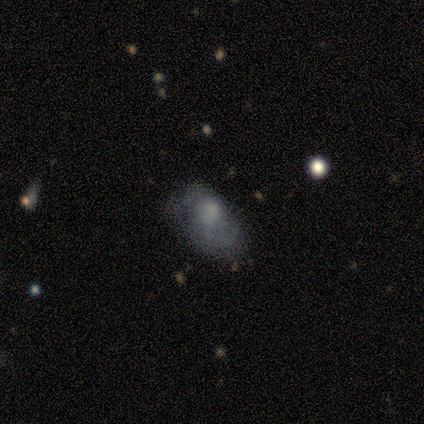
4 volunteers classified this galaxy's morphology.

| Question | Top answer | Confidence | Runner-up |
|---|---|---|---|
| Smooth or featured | featured or disk | 50% | smooth (25%) |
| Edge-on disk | no | 100% | — |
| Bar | no | 100% | — |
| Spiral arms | no | 100% | — |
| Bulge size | small | 50% | tied: none (50%) |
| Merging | major disturbance | 67% | none (33%) |